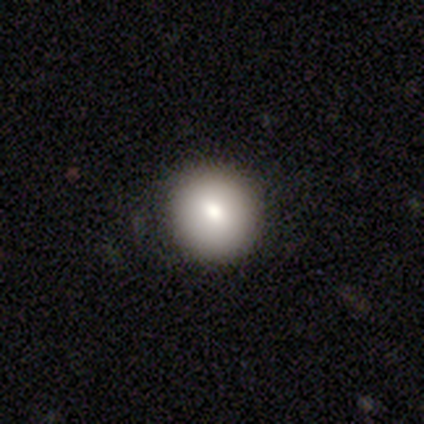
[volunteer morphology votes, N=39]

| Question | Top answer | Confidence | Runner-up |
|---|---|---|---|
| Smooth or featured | smooth | 85% | featured or disk (8%) |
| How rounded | round | 94% | in between (6%) |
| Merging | none | 94% | minor disturbance (6%) |